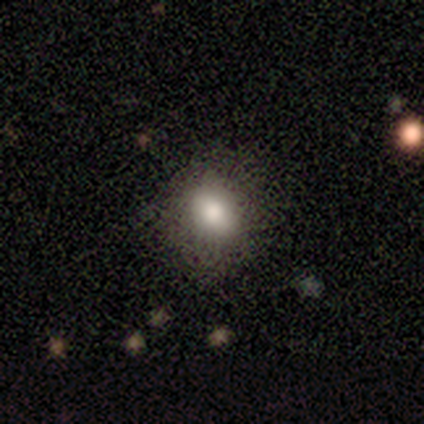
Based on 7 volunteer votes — Overall: smooth (71%). How rounded: round (60%; in between 40%). Merging: none (83%).